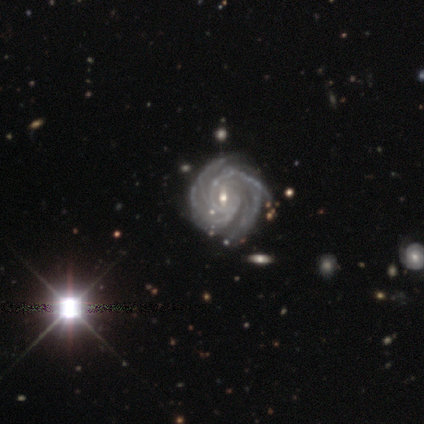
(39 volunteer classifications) Morphology: type=featured or disk (97%); edge-on=no (97%); bar=weak (59%); spiral arms=yes (100%); winding=tight (81%); arm count=more than 4 (35%); bulge=small (65%); merging=none (53%).